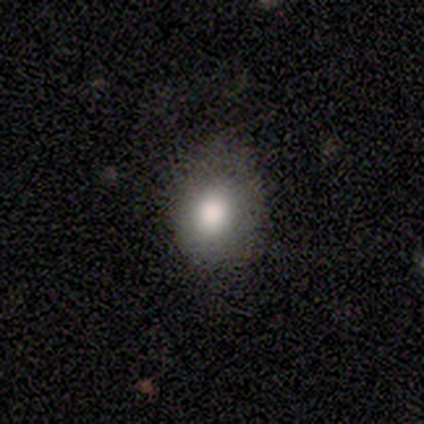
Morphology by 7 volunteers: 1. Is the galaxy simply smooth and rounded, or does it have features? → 100% smooth, 0% featured or disk, 0% star or artifact.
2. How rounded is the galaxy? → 71% round, 29% in between, 0% cigar-shaped.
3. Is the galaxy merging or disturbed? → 86% none, 14% minor disturbance, 0% major disturbance, 0% merger.